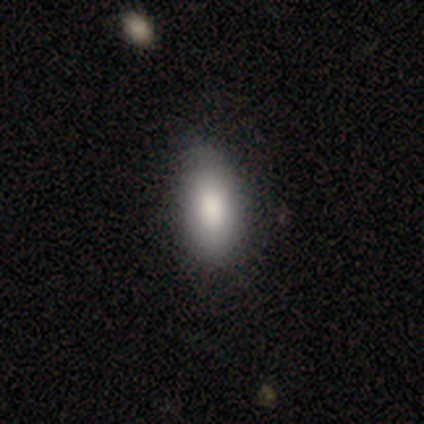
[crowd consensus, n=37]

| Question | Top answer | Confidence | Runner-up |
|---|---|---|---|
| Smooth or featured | smooth | 92% | featured or disk (8%) |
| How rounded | in between | 94% | cigar-shaped (6%) |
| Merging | none | 70% | minor disturbance (27%) |